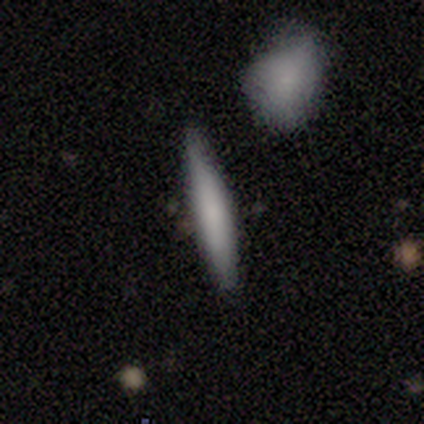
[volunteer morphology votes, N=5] Smooth or featured: smooth — 60% (featured or disk — 20%)
How rounded: cigar-shaped — 100%
Merging: none — 100%